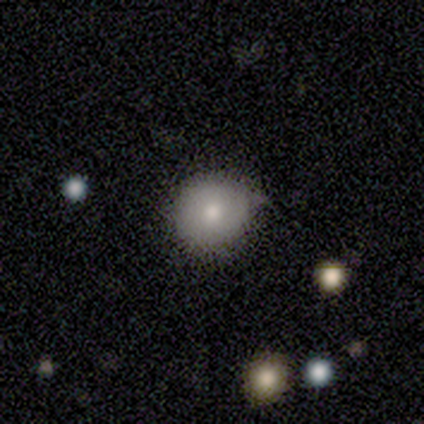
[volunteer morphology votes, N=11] A smooth galaxy with no disk features (73%) that is round (88%). Merging: none (73%).